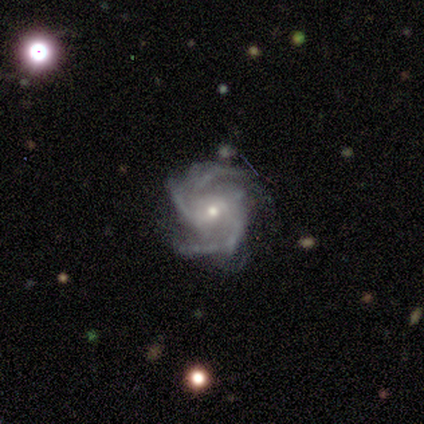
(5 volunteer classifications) Morphology: type=featured or disk (100%); edge-on=no (100%); bar=weak (60%); spiral arms=yes (100%); winding=medium (80%); arm count=2 (40%, tied with 3); bulge=small (60%); merging=none (40%, tied with minor disturbance).